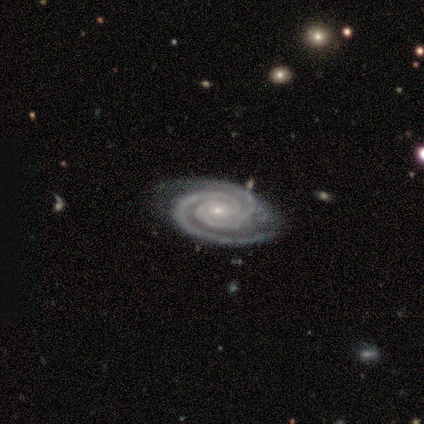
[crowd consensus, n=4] featured or disk 100%, smooth 0%, star or artifact 0%. Down the decision tree: edge-on disk — no (100%); bar — no (100%); spiral arms — yes (100%); spiral arm count — 2 (50%, tied with 3); spiral winding — tight (75%); bulge size — small (75%); merging — none (100%).